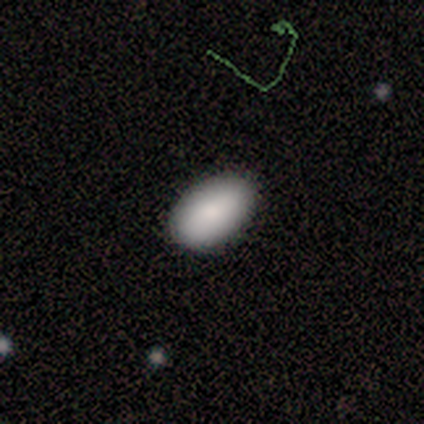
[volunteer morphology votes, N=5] Volunteers were most divided on "smooth or featured": smooth: 60%, star or artifact: 40%, featured or disk: 0%. More confident: how rounded — in between (100%); merging — none (100%).